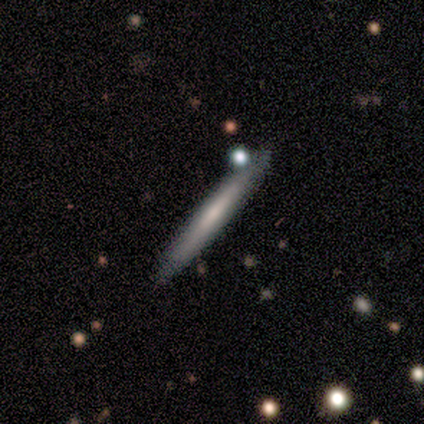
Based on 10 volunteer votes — Q: Smooth or featured?
A: featured or disk (60%); runner-up: smooth (40%)
Q: Edge-on disk?
A: yes (100%)
Q: Edge-on bulge?
A: none (83%); runner-up: boxy (17%)
Q: Merging?
A: none (100%)